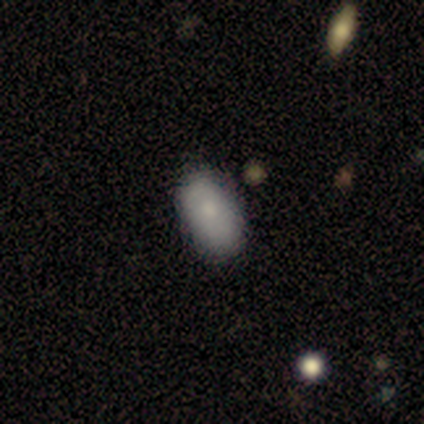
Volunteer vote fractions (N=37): This appears to be a smooth galaxy with no disk features (86%) that is in between round and cigar-shaped (94%). Merging: none (83%).